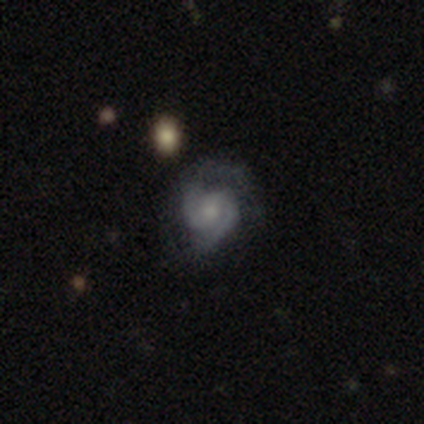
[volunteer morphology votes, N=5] Smooth or featured?
  - featured or disk: 100% *
  - smooth: 0%
  - star or artifact: 0%
Edge-on disk?
  - no: 100% *
  - yes: 0%
Bar?
  - no: 80% *
  - weak: 20%
  - strong: 0%
Spiral arms?
  - yes: 100% *
  - no: 0%
Spiral winding?
  - medium: 80% *
  - tight: 20%
  - loose: 0%
Spiral arm count?
  - 2: 100% *
  - 1: 0%
  - 3: 0%
  - 4: 0%
  - more than 4: 0%
  - can't tell: 0%
Bulge size?
  - small: 40% *
  - large: 20%
  - moderate: 20%
  - none: 20%
  - dominant: 0%
Merging?
  - none: 40% * (tied)
  - major disturbance: 40% * (tied)
  - minor disturbance: 20%
  - merger: 0%